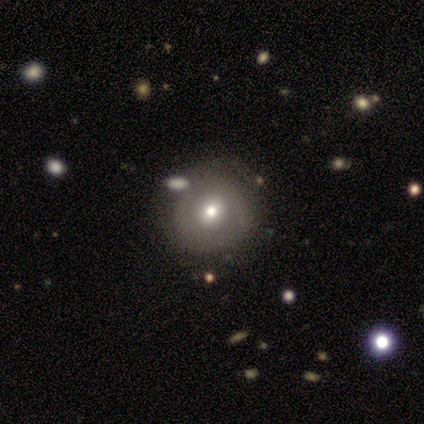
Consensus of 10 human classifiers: smooth_or_featured: smooth (p=0.70) [alt: featured or disk p=0.30]
how_rounded: round (p=0.86) [alt: in between p=0.14]
merging: none (p=0.60) [alt: minor disturbance p=0.30]